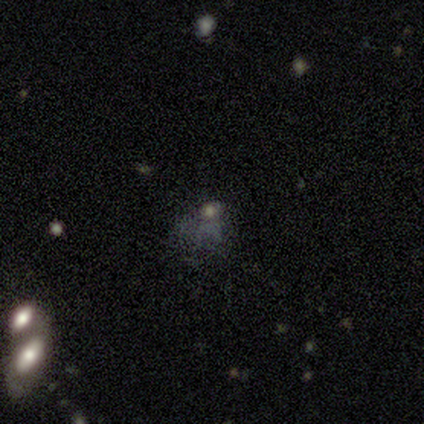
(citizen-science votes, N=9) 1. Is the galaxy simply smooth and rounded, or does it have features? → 56% smooth, 33% star or artifact, 11% featured or disk.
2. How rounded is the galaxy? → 60% in between, 40% round, 0% cigar-shaped.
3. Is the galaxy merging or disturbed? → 67% none, 33% major disturbance, 0% minor disturbance, 0% merger.